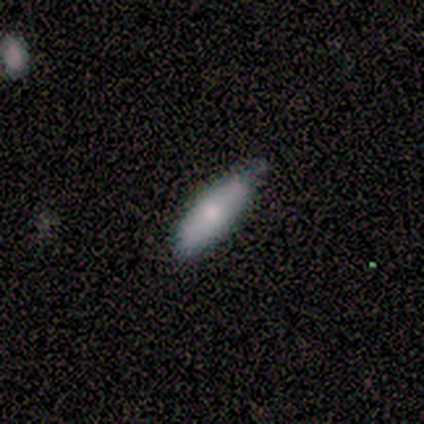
Consensus on every question: smooth or featured — smooth (100%); how rounded — in between (100%); merging — none (100%).